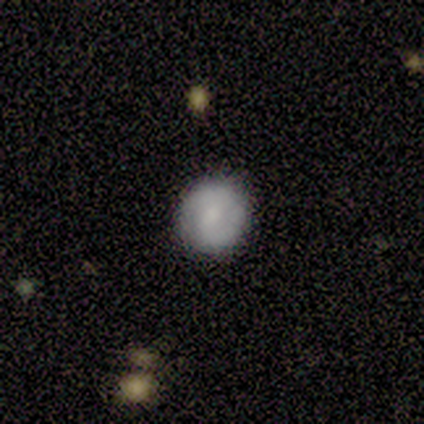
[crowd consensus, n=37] smooth 49%, featured or disk 46%, star or artifact 5%. Down the decision tree: how rounded — round (83%); merging — none (86%).